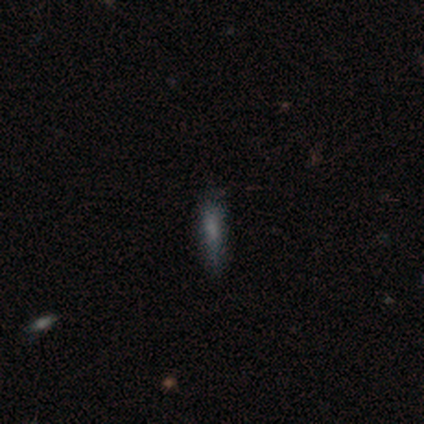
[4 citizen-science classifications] Volunteers were most divided on "smooth or featured": smooth: 75%, star or artifact: 25%, featured or disk: 0%. More confident: how rounded — cigar-shaped (100%); merging — none (100%).